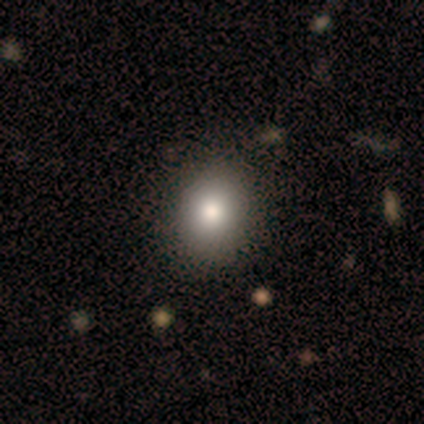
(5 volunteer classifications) smooth-or-featured: smooth: 80% | featured or disk: 20% | star or artifact: 0%
  how-rounded: in between: 75% | round: 25% | cigar-shaped: 0%
  merging: none: 100% | minor disturbance: 0% | major disturbance: 0% | merger: 0%